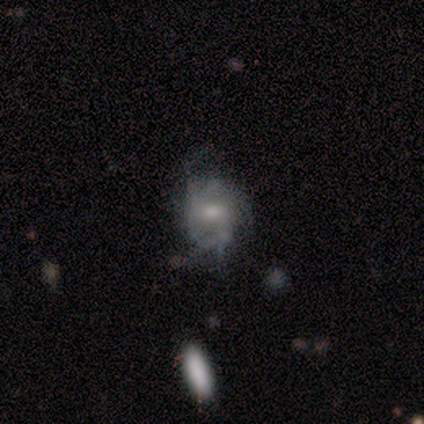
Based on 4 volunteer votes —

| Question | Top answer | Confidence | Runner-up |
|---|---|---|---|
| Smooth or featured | featured or disk | 75% | smooth (25%) |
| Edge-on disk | no | 100% | — |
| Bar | weak | 67% | no (33%) |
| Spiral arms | yes | 67% | no (33%) |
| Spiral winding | tight | 50% | tied: loose (50%) |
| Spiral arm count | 2 | 50% | tied: can't tell (50%) |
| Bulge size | small | 67% | moderate (33%) |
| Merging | major disturbance | 50% | none (25%) |